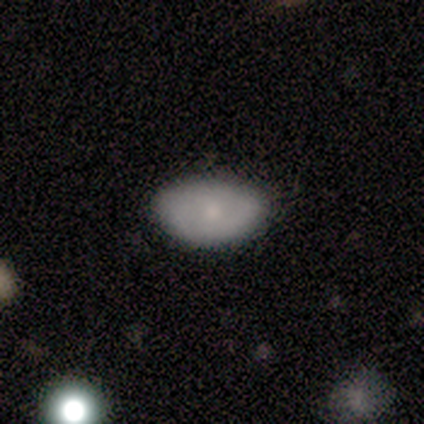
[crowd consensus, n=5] A smooth galaxy with no disk features (100%) that is in between round and cigar-shaped (100%).

Vote fractions:
- Smooth or featured? smooth: 100% / featured or disk: 0% / star or artifact: 0%
- How rounded? in between: 100% / round: 0% / cigar-shaped: 0%
- Merging? none: 60% / minor disturbance: 40% / major disturbance: 0% / merger: 0%